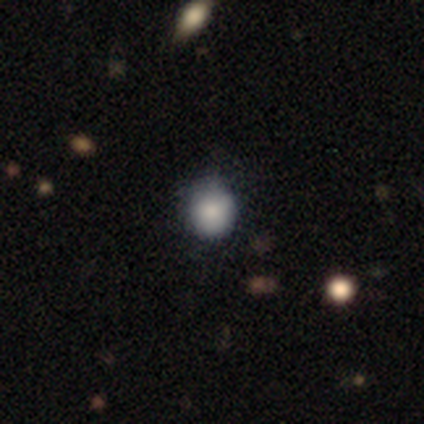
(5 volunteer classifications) Smooth or featured: smooth — 100%
How rounded: round — 100%
Merging: none — 100%